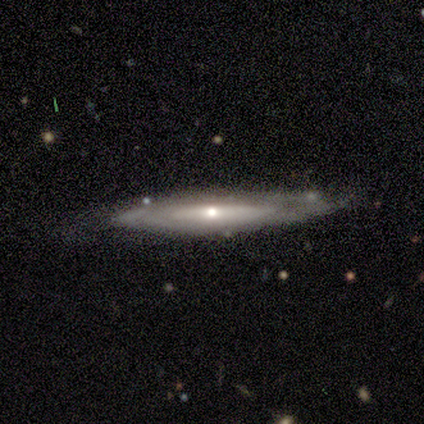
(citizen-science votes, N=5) smooth-or-featured: featured or disk: 80% | smooth: 20% | star or artifact: 0%
  disk-edge-on: no: 75% | yes: 25%
    bar: no: 100% | strong: 0% | weak: 0%
    has-spiral-arms: no: 67% | yes: 33%
    bulge-size: moderate: 67% | small: 33% | dominant: 0% | large: 0% | none: 0%
  merging: minor disturbance: 60% | none: 40% | major disturbance: 0% | merger: 0%